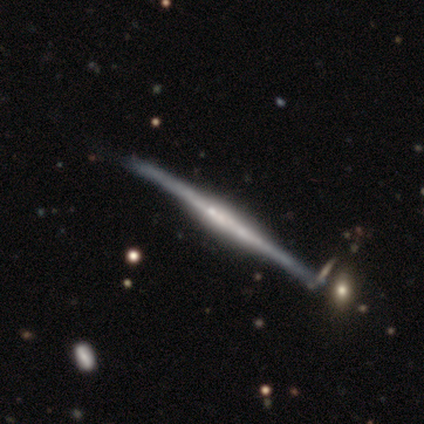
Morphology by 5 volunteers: smooth_or_featured: featured or disk (p=0.80) [alt: smooth p=0.20]
disk_edge_on: yes (p=1.00)
edge_on_bulge: none (p=0.50) [alt: boxy p=0.25]
merging: none (p=0.80) [alt: minor disturbance p=0.20]